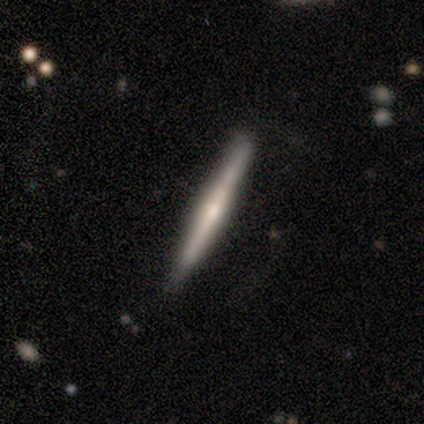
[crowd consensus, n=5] This is clearly a featured or disk galaxy (80%). It is clearly viewed edge-on (100%). Edge-on bulge: likely rounded (75%). Merging: clearly none (80%).